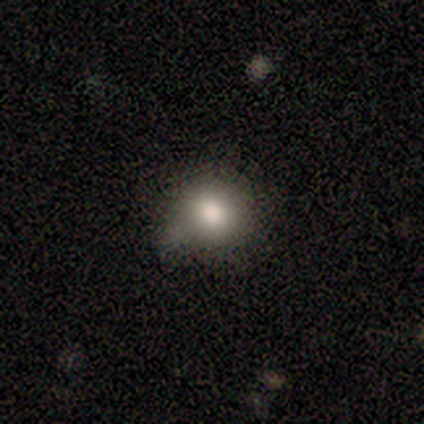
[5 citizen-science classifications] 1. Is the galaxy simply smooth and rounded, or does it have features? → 80% smooth, 20% star or artifact, 0% featured or disk.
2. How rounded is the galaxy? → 100% round, 0% in between, 0% cigar-shaped.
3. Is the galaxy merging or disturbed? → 75% none, 25% minor disturbance, 0% major disturbance, 0% merger.